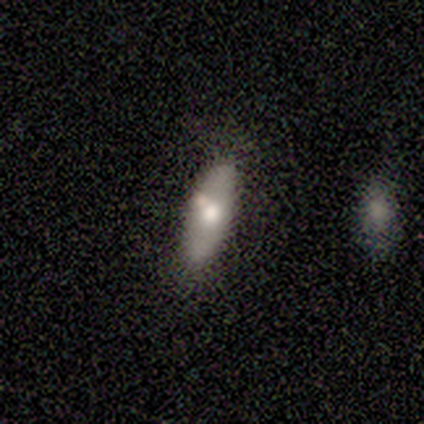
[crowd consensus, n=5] smooth_or_featured: featured or disk (p=0.60) [alt: smooth p=0.40]
disk_edge_on: no (p=1.00)
bar: no (p=1.00)
has_spiral_arms: no (p=1.00)
bulge_size: moderate (p=0.67) [alt: none p=0.33]
merging: none (p=0.80) [alt: minor disturbance p=0.20]